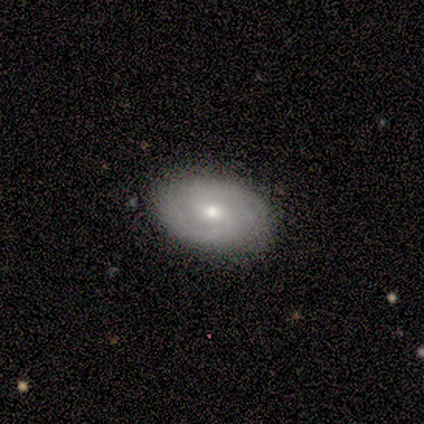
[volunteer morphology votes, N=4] smooth_or_featured: smooth (p=0.50) [tied with: featured or disk p=0.50]
how_rounded: in between (p=1.00)
merging: none (p=0.75) [alt: major disturbance p=0.25]